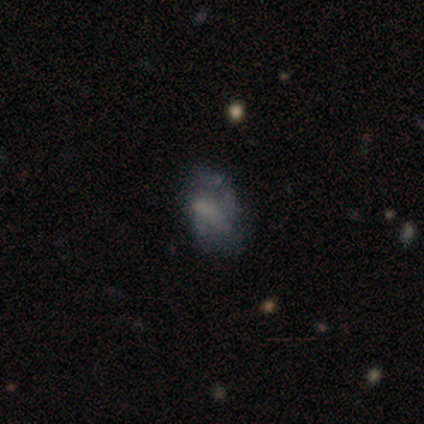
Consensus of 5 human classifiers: A smooth galaxy with no disk features (40%, tied with featured or disk) that is in between round and cigar-shaped (100%). Merging: none (75%).